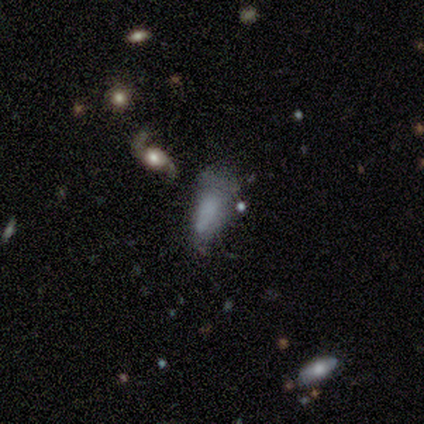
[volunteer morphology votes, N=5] Overall: smooth (60%; featured or disk 40%). How rounded: in between (100%). Merging: major disturbance (60%; none 40%).